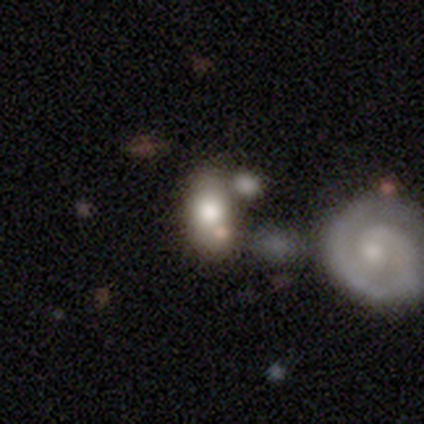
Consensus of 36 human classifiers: Smooth or featured: smooth — 61% (featured or disk — 31%)
How rounded: in between — 86% (round — 14%)
Merging: merger — 52%